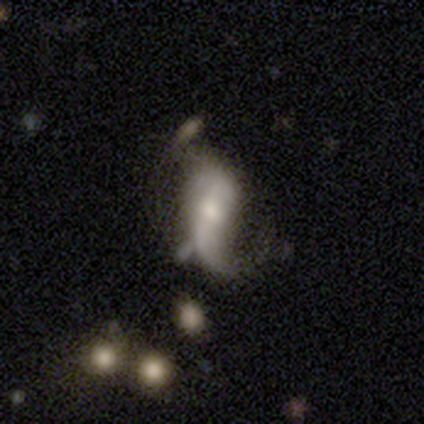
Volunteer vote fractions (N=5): smooth-or-featured: featured or disk: 80% | smooth: 20% | star or artifact: 0%
  disk-edge-on: no: 100% | yes: 0%
    bar: strong: 50% | weak: 25% | no: 25%
    has-spiral-arms: yes: 75% | no: 25%
      spiral-winding: loose: 67% | medium: 33% | tight: 0%
      spiral-arm-count: 2: 67% | 1: 33% | 3: 0% | 4: 0% | more than 4: 0% | can't tell: 0%
    bulge-size: moderate: 75% | large: 25% | dominant: 0% | small: 0% | none: 0%
  merging: minor disturbance: 40% (tied) | major disturbance: 40% (tied) | none: 20% | merger: 0%